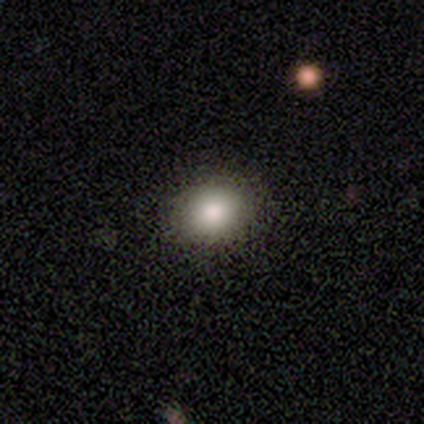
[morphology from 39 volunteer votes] smooth_or_featured: smooth (p=0.79) [alt: star or artifact p=0.13]
how_rounded: round (p=0.52) [alt: in between p=0.48]
merging: none (p=0.79) [alt: minor disturbance p=0.15]